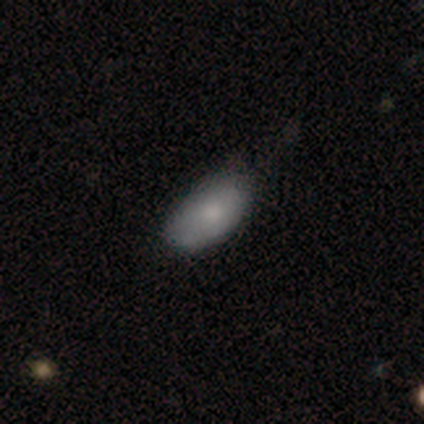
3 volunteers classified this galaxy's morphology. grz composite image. It shows a smooth galaxy with no disk features (100%) that is in between round and cigar-shaped (100%). Merging: minor disturbance (67%).